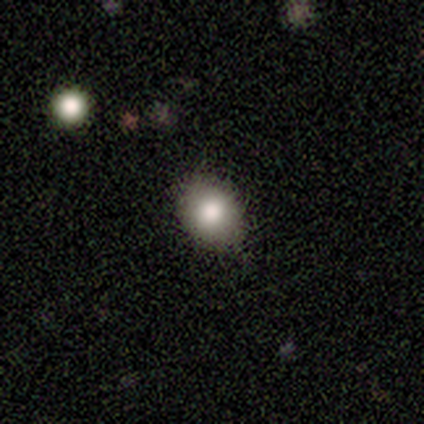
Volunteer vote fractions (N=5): This is clearly a smooth galaxy (100%). How rounded: likely round (60%). Merging: clearly none (80%).